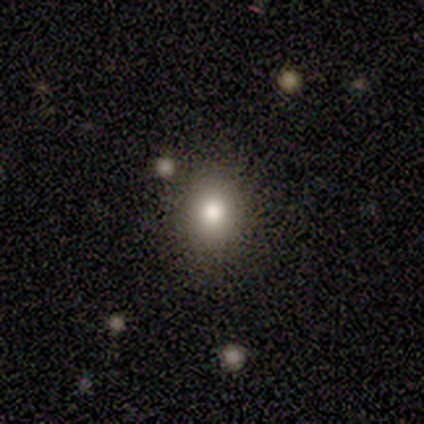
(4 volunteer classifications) A smooth galaxy with no disk features (100%) that is round (75%).

Vote fractions:
- Smooth or featured? smooth: 100% / featured or disk: 0% / star or artifact: 0%
- How rounded? round: 75% / in between: 25% / cigar-shaped: 0%
- Merging? none: 100% / minor disturbance: 0% / major disturbance: 0% / merger: 0%